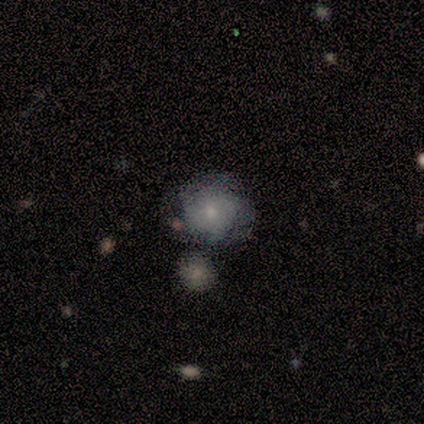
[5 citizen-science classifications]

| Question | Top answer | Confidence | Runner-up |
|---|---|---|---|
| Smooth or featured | smooth | 60% | featured or disk (40%) |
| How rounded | round | 67% | in between (33%) |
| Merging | none | 80% | minor disturbance (20%) |